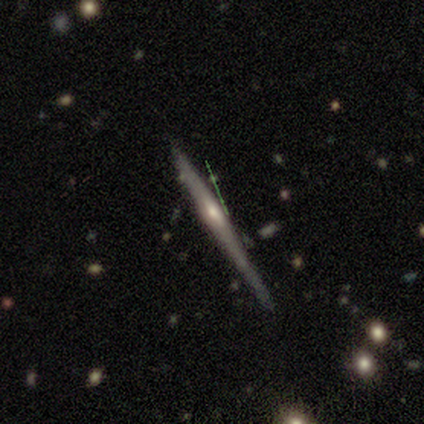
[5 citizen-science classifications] Overall: smooth (40%, tied with featured or disk). How rounded: cigar-shaped (100%). Merging: none (75%).